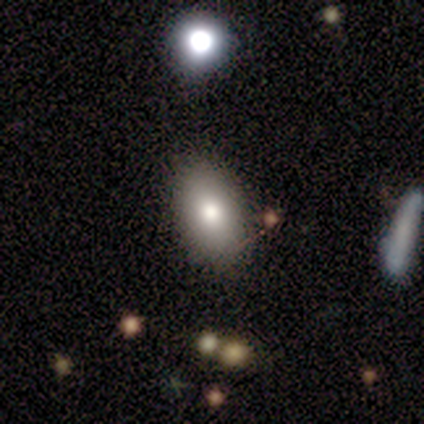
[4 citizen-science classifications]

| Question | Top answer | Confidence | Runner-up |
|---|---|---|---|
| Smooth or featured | smooth | 75% | star or artifact (25%) |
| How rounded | in between | 100% | — |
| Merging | none | 100% | — |